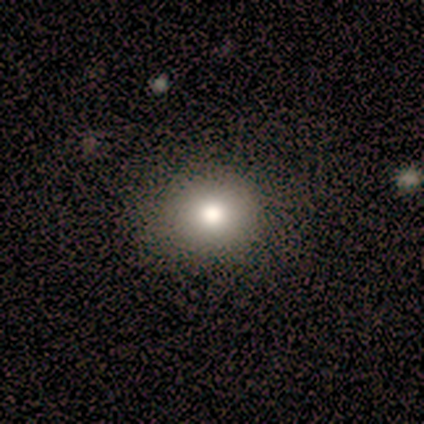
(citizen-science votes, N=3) smooth_or_featured: smooth (p=1.00)
how_rounded: in between (p=0.67) [alt: round p=0.33]
merging: none (p=0.33) [tied with: minor disturbance p=0.33, major disturbance p=0.33]